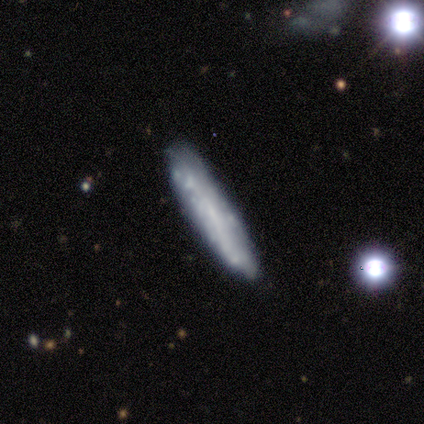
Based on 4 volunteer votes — smooth 50% (tied), featured or disk 50% (tied), star or artifact 0%. Down the decision tree: how rounded — cigar-shaped (100%); merging — minor disturbance (75%).